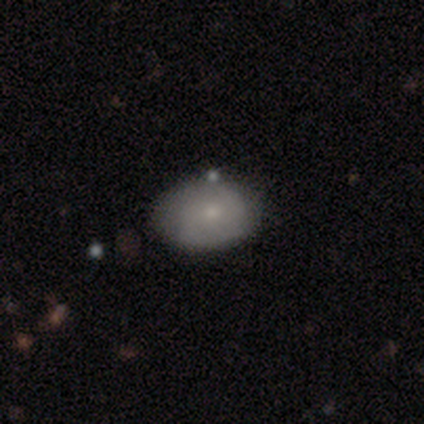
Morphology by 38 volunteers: Smooth or featured? 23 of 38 (61%) said smooth. How rounded? 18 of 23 (78%) said in between. Merging? 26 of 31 (84%) said none.